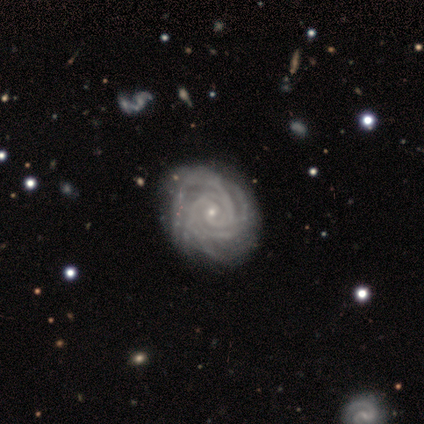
smooth_or_featured: featured or disk (p=1.00)
disk_edge_on: no (p=1.00)
bar: no (p=0.64) [alt: weak p=0.27]
has_spiral_arms: yes (p=1.00)
spiral_winding: tight (p=0.82) [alt: medium p=0.18]
spiral_arm_count: 3 (p=0.36) [alt: more than 4 p=0.27]
bulge_size: small (p=0.73) [alt: moderate p=0.27]
merging: none (p=0.36) [tied with: minor disturbance p=0.36]